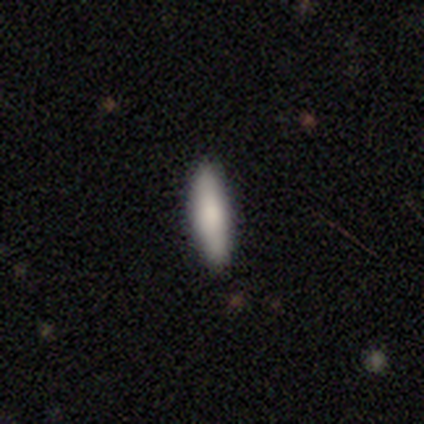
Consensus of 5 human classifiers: Smooth or featured: smooth — 100%
How rounded: cigar-shaped — 60% (in between — 40%)
Merging: none — 100%